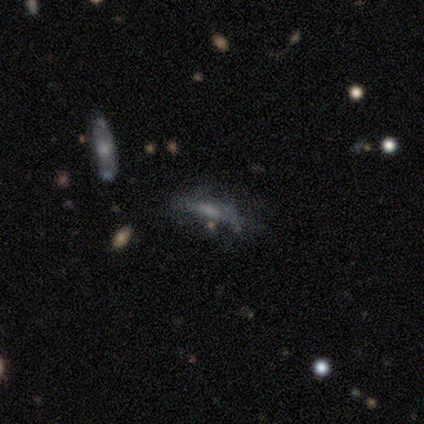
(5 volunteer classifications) Smooth or featured? featured or disk (60%)
Edge-on disk? no (67%)
Bar? weak (50%, tied with no)
Spiral arms? yes (50%, tied with no)
Spiral winding? loose (100%)
Spiral arm count? 4 (100%)
Bulge size? small (50%, tied with none)
Merging? none (50%)